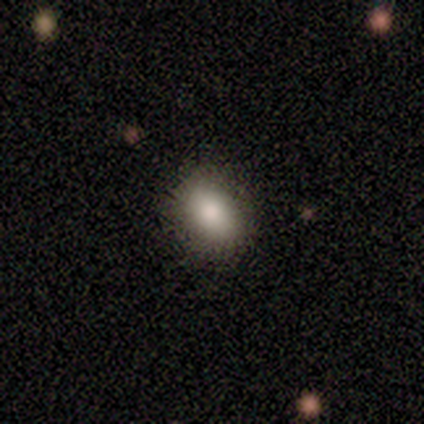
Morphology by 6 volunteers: Q: Smooth or featured?
A: smooth (100%)
Q: How rounded?
A: in between (67%); runner-up: round (33%)
Q: Merging?
A: none (83%); runner-up: minor disturbance (17%)